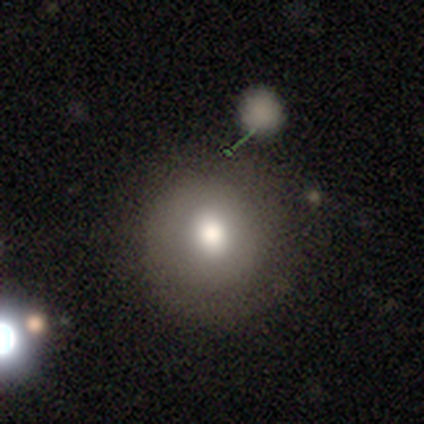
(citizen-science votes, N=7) smooth_or_featured: smooth (p=0.86) [alt: featured or disk p=0.14]
how_rounded: round (p=1.00)
merging: none (p=0.86) [alt: minor disturbance p=0.14]